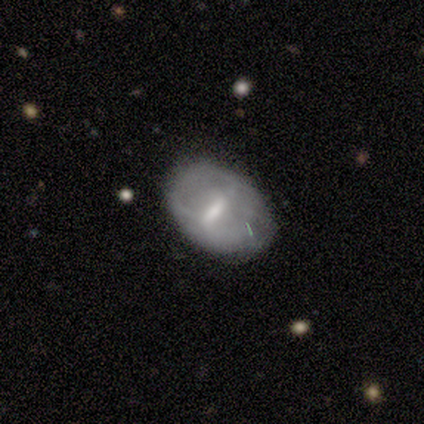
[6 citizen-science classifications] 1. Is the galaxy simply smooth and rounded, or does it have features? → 83% smooth, 17% featured or disk, 0% star or artifact.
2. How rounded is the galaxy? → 60% in between, 20% round, 20% cigar-shaped.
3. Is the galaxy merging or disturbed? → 50% none, 33% minor disturbance, 17% major disturbance, 0% merger.